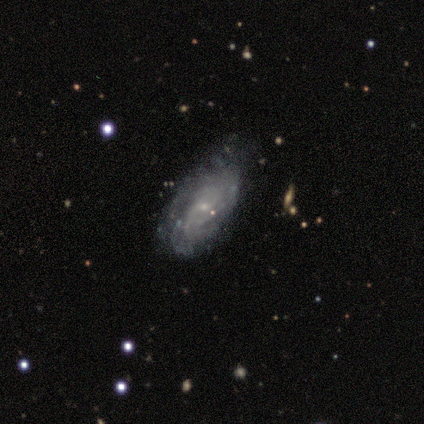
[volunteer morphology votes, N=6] Smooth or featured? featured or disk (83%)
Edge-on disk? no (80%)
Bar? no (75%)
Spiral arms? yes (100%)
Spiral winding? medium (50%)
Spiral arm count? can't tell (100%)
Bulge size? small (75%)
Merging? none (67%)